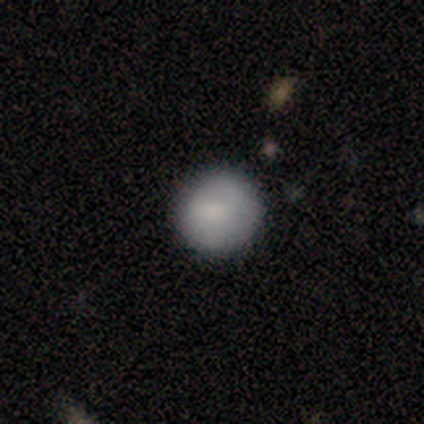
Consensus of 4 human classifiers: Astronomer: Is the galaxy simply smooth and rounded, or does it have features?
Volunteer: smooth — 100%.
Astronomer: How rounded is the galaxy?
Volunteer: round — 100%.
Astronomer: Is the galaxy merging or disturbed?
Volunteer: none — 100%.